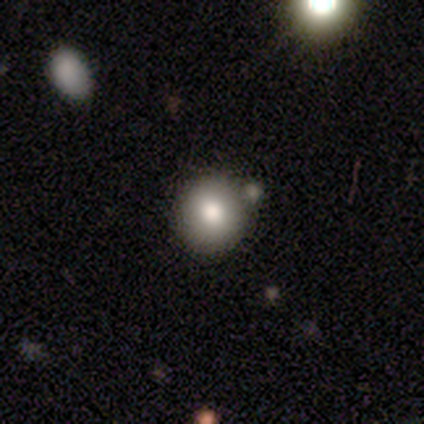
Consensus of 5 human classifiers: Morphology: type=smooth (100%); roundness=round (100%); merging=none (80%).